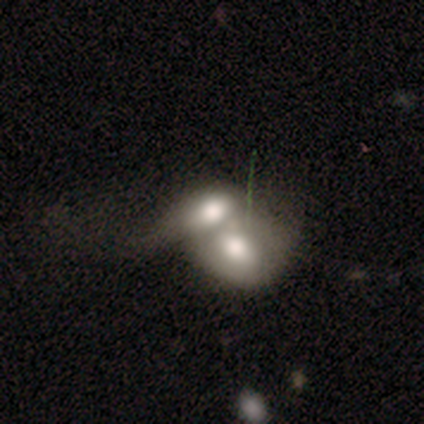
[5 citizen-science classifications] Volunteers were most divided on "smooth or featured": smooth: 60%, featured or disk: 40%, star or artifact: 0%. More confident: merging — merger (100%); how rounded — in between (67%).